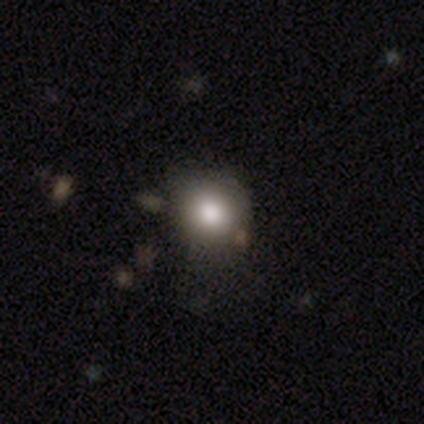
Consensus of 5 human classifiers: smooth-or-featured: smooth: 100% | featured or disk: 0% | star or artifact: 0%
  how-rounded: round: 100% | in between: 0% | cigar-shaped: 0%
  merging: none: 80% | major disturbance: 20% | minor disturbance: 0% | merger: 0%